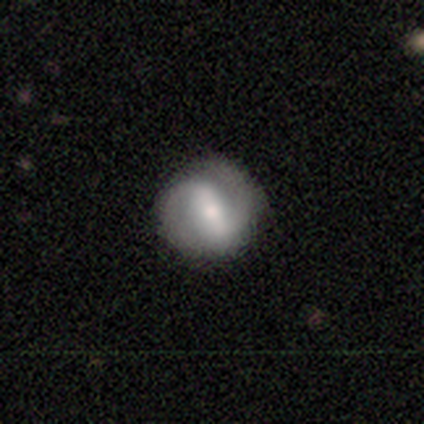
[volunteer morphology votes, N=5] A featured or disk galaxy (80%) with a strong bar (75%), 2 (100%) tight (50%) spiral arms (100%) and a small central bulge (50%). Merging: none (100%).